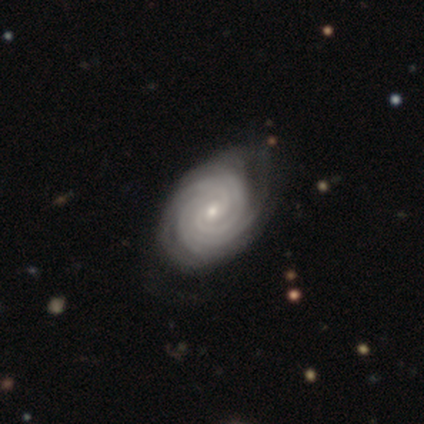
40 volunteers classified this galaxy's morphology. Overall: featured or disk (100%). Edge-on disk: no (95%). Bar: no (66%; weak 32%). Spiral arms: yes (100%). Spiral arm count: 4 (34%; can't tell 24%). Spiral winding: tight (89%). Bulge size: small (82%). Merging: none (50%; minor disturbance 12%).